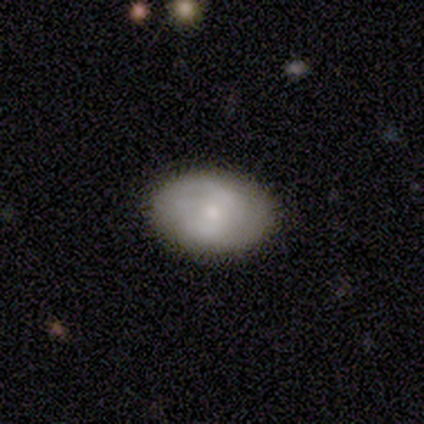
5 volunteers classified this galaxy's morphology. Smooth or featured: smooth — 60% (featured or disk — 40%)
How rounded: in between — 67% (round — 33%)
Merging: minor disturbance — 60% (none — 40%)